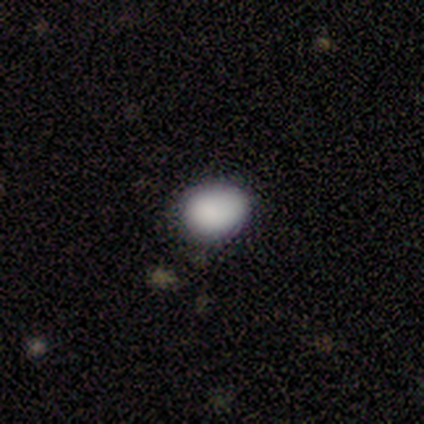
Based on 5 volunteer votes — Smooth or featured? smooth (100%)
How rounded? round (60%)
Merging? none (100%)